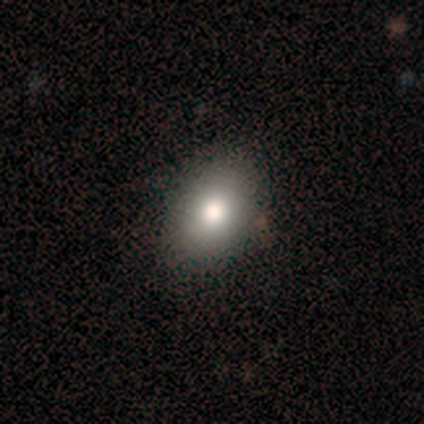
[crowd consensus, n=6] Volunteers were most divided on "merging": none: 83%, minor disturbance: 17%, major disturbance: 0%, merger: 0%. More confident: smooth or featured — smooth (100%); how rounded — in between (100%).